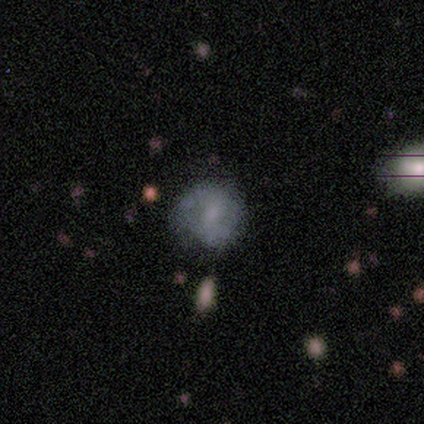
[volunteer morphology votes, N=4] smooth_or_featured: smooth (p=0.75) [alt: featured or disk p=0.25]
how_rounded: round (p=0.67) [alt: in between p=0.33]
merging: none (p=0.75) [alt: minor disturbance p=0.25]